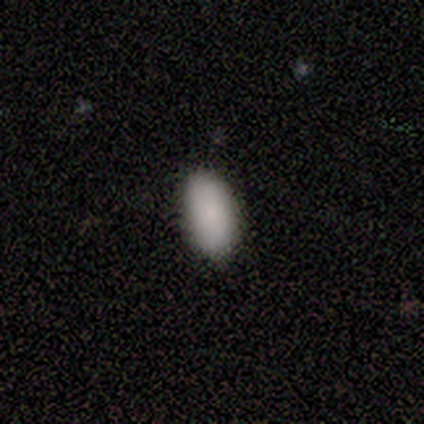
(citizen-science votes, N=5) Smooth or featured? 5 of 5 (100%) said smooth. How rounded? 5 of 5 (100%) said in between. Merging? 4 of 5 (80%) said none.